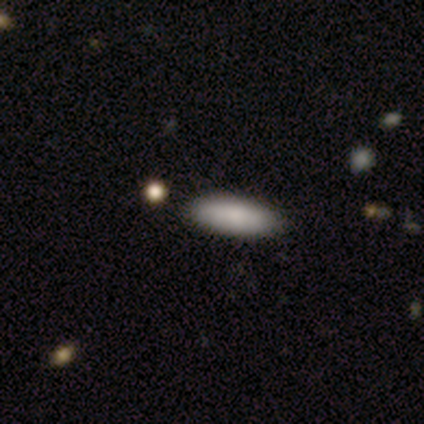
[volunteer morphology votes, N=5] A smooth galaxy with no disk features (100%) that is in between round and cigar-shaped (60%). Merging: none (100%).